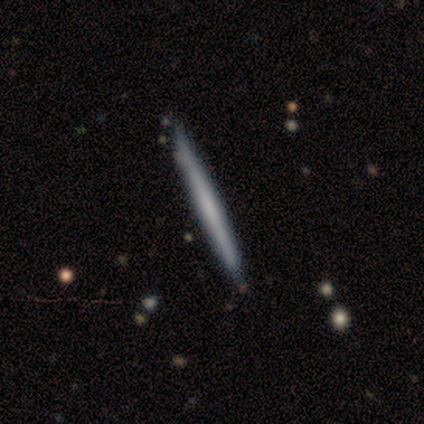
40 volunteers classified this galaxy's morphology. This appears to be a featured or disk galaxy (55%) viewed edge-on (100%) with no central bulge (100%). Merging: none (58%).